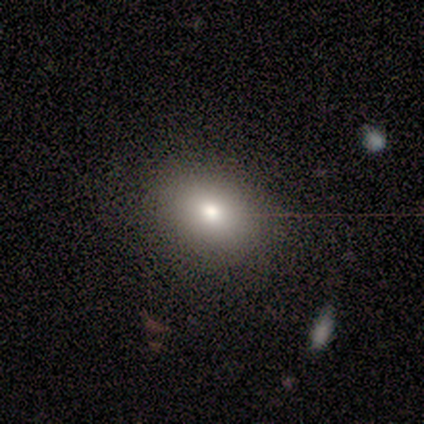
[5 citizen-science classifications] Volunteers were most divided on "smooth or featured": smooth: 60%, featured or disk: 20%, star or artifact: 20%. More confident: how rounded — in between (100%); merging — none (75%).